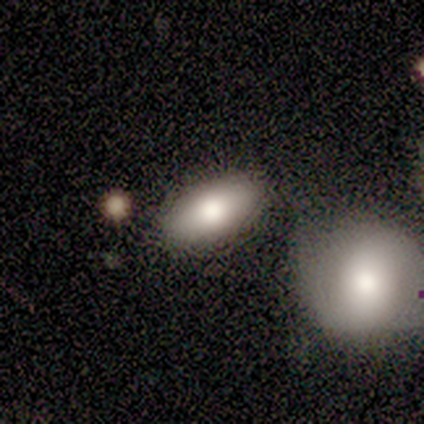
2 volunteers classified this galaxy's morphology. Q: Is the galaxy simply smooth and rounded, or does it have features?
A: smooth — 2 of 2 (100%).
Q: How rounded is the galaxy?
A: in between — 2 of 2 (100%).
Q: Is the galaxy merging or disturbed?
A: none — 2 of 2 (100%).